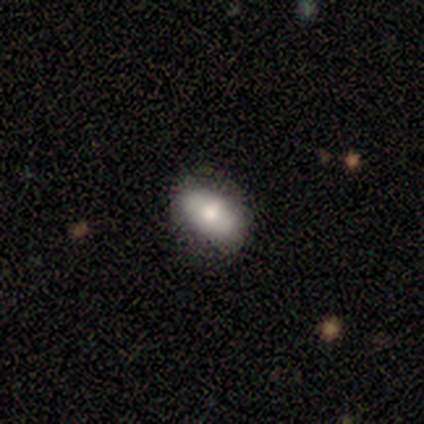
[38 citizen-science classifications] smooth 79%, featured or disk 18%, star or artifact 3%. Down the decision tree: how rounded — in between (90%); merging — none (86%).